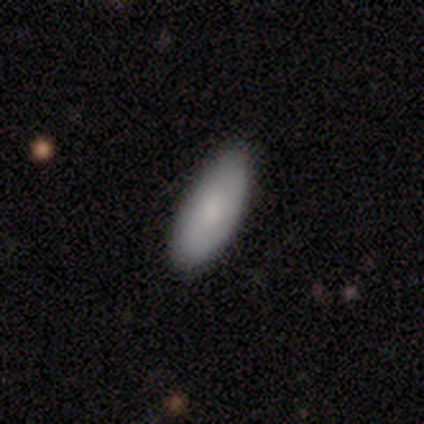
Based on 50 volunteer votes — Smooth or featured: smooth — 98% (star or artifact — 2%)
How rounded: in between — 88% (cigar-shaped — 10%)
Merging: none — 78% (minor disturbance — 22%)